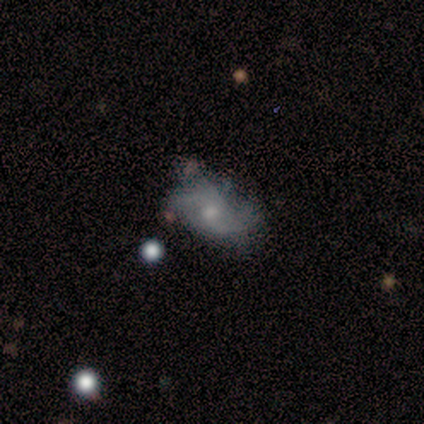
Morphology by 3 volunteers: A featured or disk galaxy (100%) with no bar (67%), 2 (67%) loose (67%) spiral arms (100%) and a moderate central bulge (67%).

Vote fractions:
- Smooth or featured? featured or disk: 100% / smooth: 0% / star or artifact: 0%
- Edge-on disk? no: 100% / yes: 0%
- Bar? no: 67% / weak: 33% / strong: 0%
- Spiral arms? yes: 100% / no: 0%
- Spiral winding? loose: 67% / medium: 33% / tight: 0%
- Spiral arm count? 2: 67% / 3: 33% / 1: 0% / 4: 0% / more than 4: 0% / can't tell: 0%
- Bulge size? moderate: 67% / small: 33% / dominant: 0% / large: 0% / none: 0%
- Merging? none: 33% (tied) / minor disturbance: 33% (tied) / major disturbance: 33% (tied) / merger: 0%